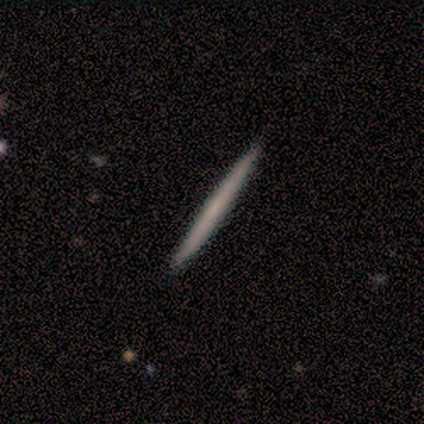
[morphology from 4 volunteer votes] Smooth or featured? 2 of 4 (50%, tied with featured or disk) said smooth. How rounded? 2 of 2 (100%) said cigar-shaped. Merging? 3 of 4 (75%) said none.